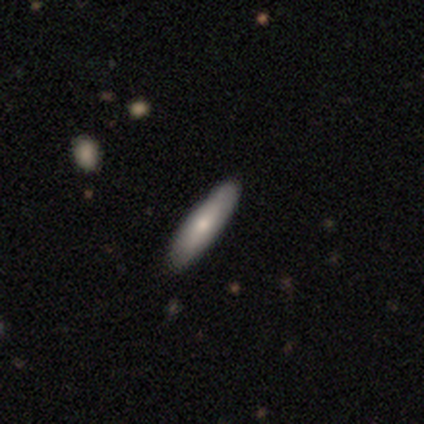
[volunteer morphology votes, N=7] smooth 71%, featured or disk 29%, star or artifact 0%. Down the decision tree: how rounded — cigar-shaped (80%); merging — none (100%).